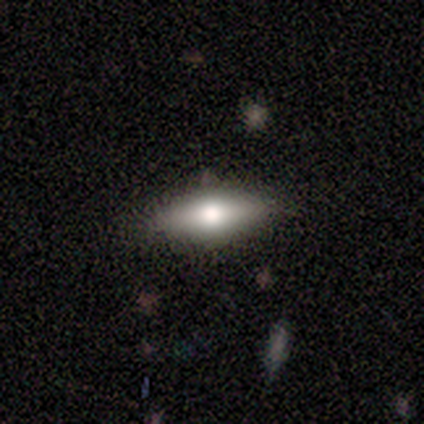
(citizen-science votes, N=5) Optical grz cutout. It shows a smooth galaxy with no disk features (60%) that is in between round and cigar-shaped (67%). Merging: none (80%).